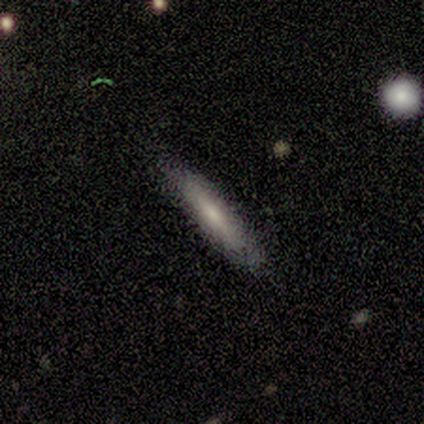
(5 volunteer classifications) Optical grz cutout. It shows a smooth galaxy with no disk features (60%) that is cigar-shaped (100%). Merging: none (80%).